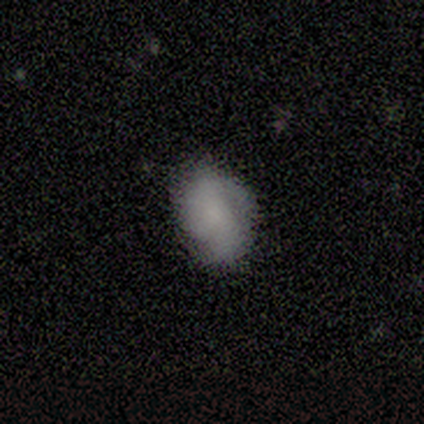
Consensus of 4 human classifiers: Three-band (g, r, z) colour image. It shows a smooth galaxy with no disk features (75%) that is in between round and cigar-shaped (100%). Merging: none (67%).